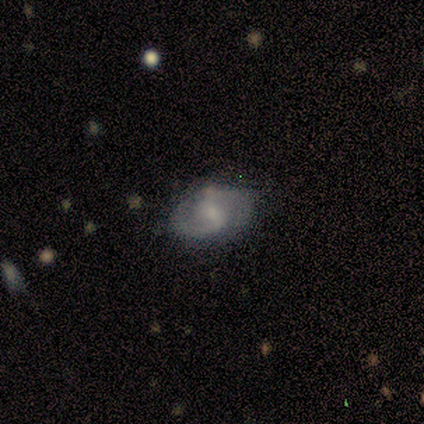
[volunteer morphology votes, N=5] featured or disk 60%, smooth 40%, star or artifact 0%. Down the decision tree: edge-on disk — no (100%); bar — no (100%); spiral arms — yes (100%); spiral arm count — 2 (100%); spiral winding — tight (33%, tied with medium and loose); bulge size — small (100%); merging — none (100%).